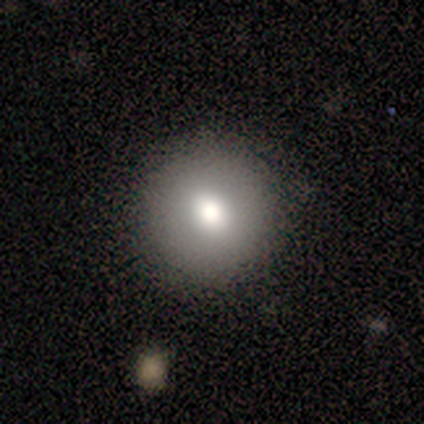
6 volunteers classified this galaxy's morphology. smooth_or_featured: smooth (p=0.67) [alt: featured or disk p=0.17]
how_rounded: round (p=0.75) [alt: in between p=0.25]
merging: none (p=0.80) [alt: minor disturbance p=0.20]